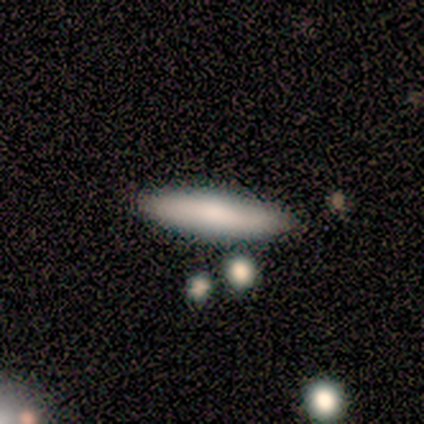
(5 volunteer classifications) Morphology: type=smooth (40%, tied with featured or disk); roundness=in between (50%, tied with cigar-shaped); merging=none (100%).